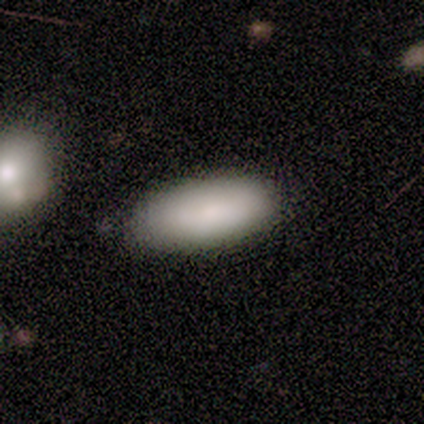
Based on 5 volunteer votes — A smooth galaxy with no disk features (100%) that is in between round and cigar-shaped (80%). Merging: none (80%).